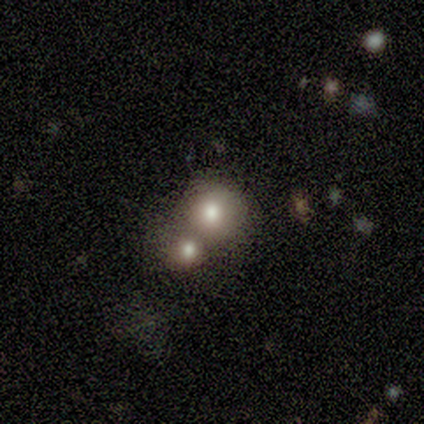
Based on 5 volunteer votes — smooth 80%, star or artifact 20%, featured or disk 0%. Down the decision tree: how rounded — round (100%); merging — none (50%, tied with merger).